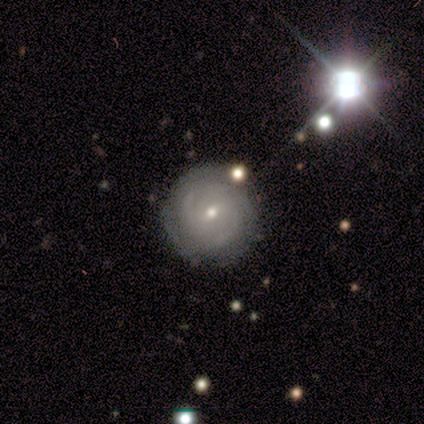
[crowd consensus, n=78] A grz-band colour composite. It shows a featured or disk galaxy (79%) with a weak bar (52%), 2 (36%, tied with can't tell) tight (77%) spiral arms (92%) and a small central bulge (69%). Merging: none (82%).